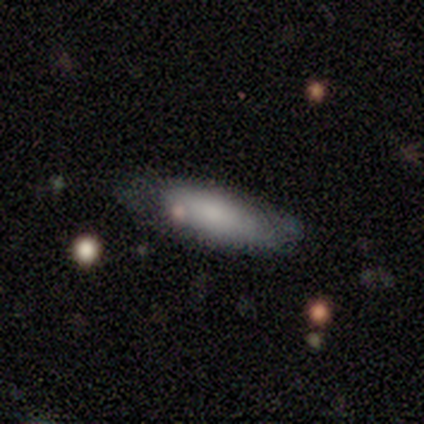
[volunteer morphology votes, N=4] Q: Smooth or featured?
A: smooth (50%); tied with: featured or disk (50%)
Q: How rounded?
A: in between (50%); tied with: cigar-shaped (50%)
Q: Merging?
A: minor disturbance (100%)